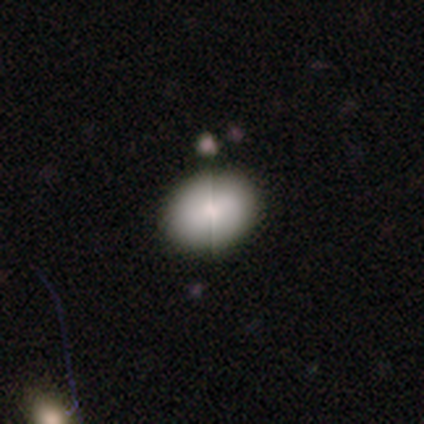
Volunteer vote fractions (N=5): smooth_or_featured: smooth (p=0.80) [alt: star or artifact p=0.20]
how_rounded: round (p=1.00)
merging: none (p=0.75) [alt: minor disturbance p=0.25]